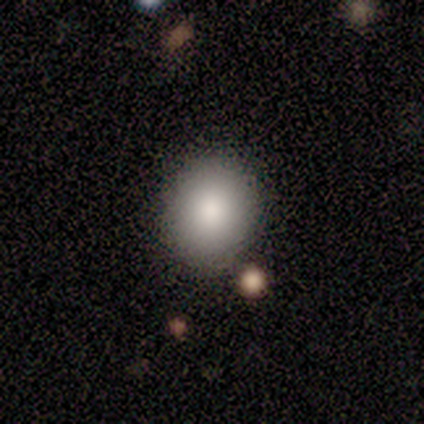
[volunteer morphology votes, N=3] A smooth galaxy with no disk features (100%) that is round (67%).

Vote fractions:
- Smooth or featured? smooth: 100% / featured or disk: 0% / star or artifact: 0%
- How rounded? round: 67% / in between: 33% / cigar-shaped: 0%
- Merging? none: 67% / minor disturbance: 33% / major disturbance: 0% / merger: 0%